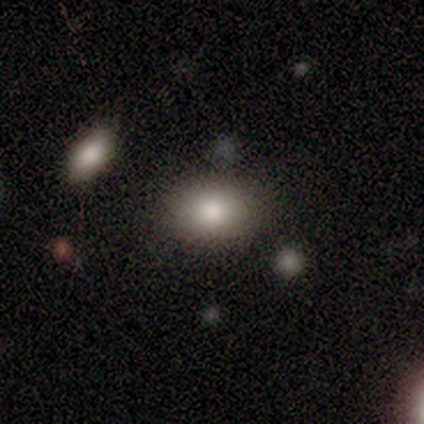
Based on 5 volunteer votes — This appears to be a smooth galaxy with no disk features (100%) that is round (80%). Merging: none (100%).